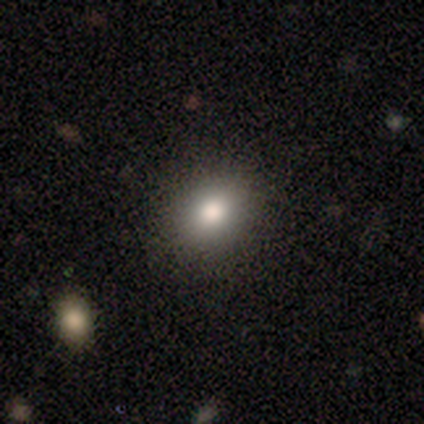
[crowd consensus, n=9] Morphology: type=smooth (89%); roundness=in between (75%); merging=none (100%).